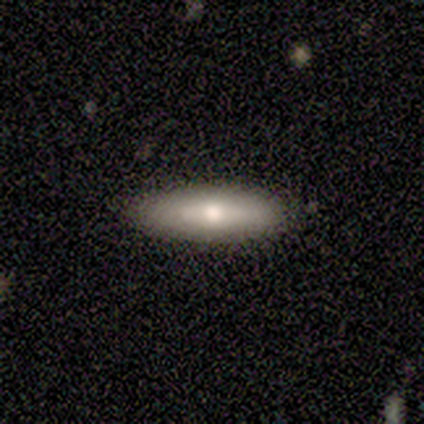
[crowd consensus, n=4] A smooth galaxy with no disk features (50%, tied with star or artifact) that is in between round and cigar-shaped (50%, tied with cigar-shaped).

Vote fractions:
- Smooth or featured? smooth: 50% (tied) / star or artifact: 50% (tied) / featured or disk: 0%
- How rounded? in between: 50% (tied) / cigar-shaped: 50% (tied) / round: 0%
- Merging? none: 50% (tied) / major disturbance: 50% (tied) / minor disturbance: 0% / merger: 0%